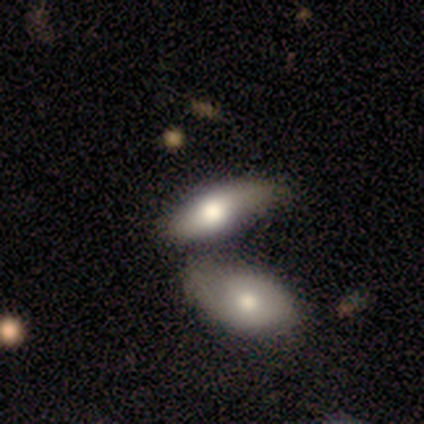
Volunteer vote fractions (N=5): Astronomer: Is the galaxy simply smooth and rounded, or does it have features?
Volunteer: smooth — 60%.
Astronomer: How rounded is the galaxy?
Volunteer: in between — 100%.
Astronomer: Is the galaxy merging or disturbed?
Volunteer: minor disturbance — 50%, tied with merger at 50%.